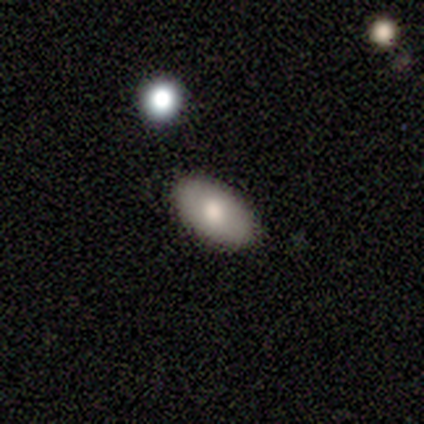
A smooth galaxy with no disk features (60%) that is in between round and cigar-shaped (100%).

Vote fractions:
- Smooth or featured? smooth: 60% / featured or disk: 20% / star or artifact: 20%
- How rounded? in between: 100% / round: 0% / cigar-shaped: 0%
- Merging? none: 100% / minor disturbance: 0% / major disturbance: 0% / merger: 0%